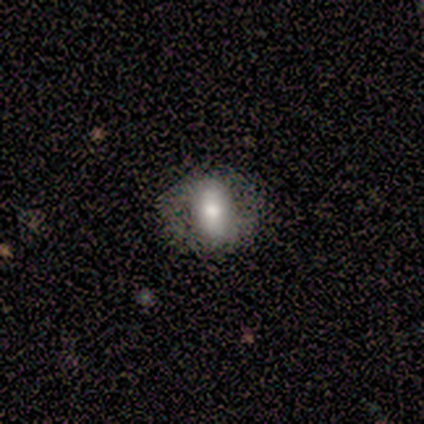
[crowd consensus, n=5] Smooth or featured: smooth — 60% (featured or disk — 40%)
How rounded: in between — 67% (round — 33%)
Merging: none — 80% (minor disturbance — 20%)